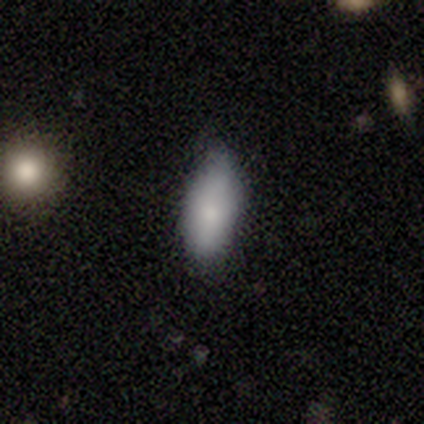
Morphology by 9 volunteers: smooth_or_featured: smooth (p=0.78) [alt: featured or disk p=0.11]
how_rounded: in between (p=1.00)
merging: none (p=0.62) [alt: minor disturbance p=0.38]